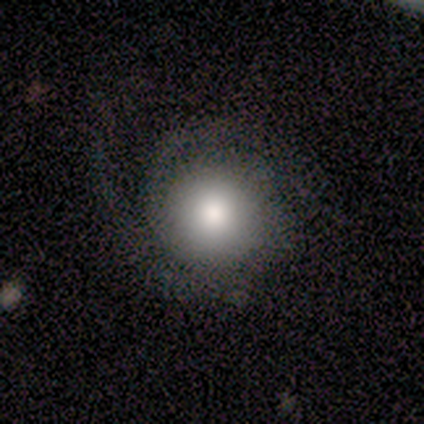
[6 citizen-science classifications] This appears to be a featured or disk galaxy (67%) with a weak bar (50%, tied with no), 2 (100%) tight (75%) spiral arms (100%) and a moderate central bulge (50%). Merging: none (50%, tied with minor disturbance).